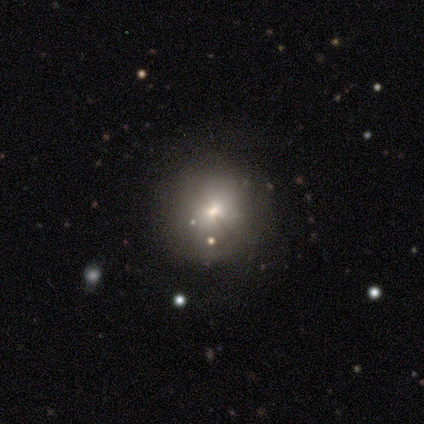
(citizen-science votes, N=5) Q: Smooth or featured?
A: smooth (80%); runner-up: featured or disk (20%)
Q: How rounded?
A: round (100%)
Q: Merging?
A: none (100%)